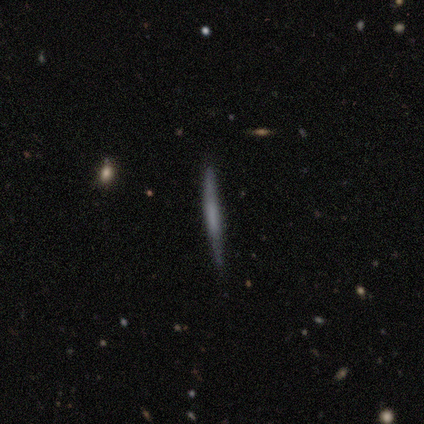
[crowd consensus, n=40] Smooth or featured? smooth (50%, tied with featured or disk)
How rounded? cigar-shaped (100%)
Merging? none (90%)